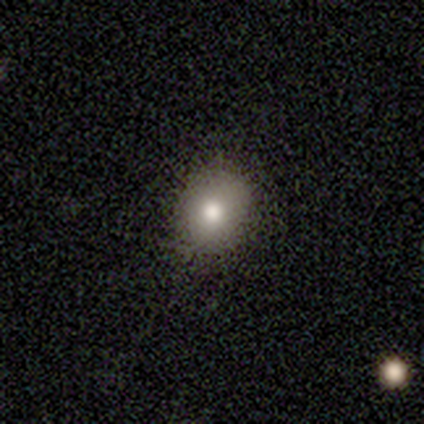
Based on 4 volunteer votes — smooth_or_featured: smooth (p=0.75) [alt: featured or disk p=0.25]
how_rounded: in between (p=0.67) [alt: round p=0.33]
merging: none (p=0.75) [alt: minor disturbance p=0.25]